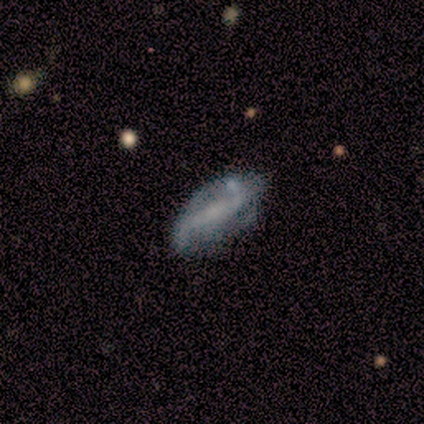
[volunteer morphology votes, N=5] smooth_or_featured: featured or disk (p=0.60) [alt: smooth p=0.40]
disk_edge_on: no (p=0.67) [alt: yes p=0.33]
bar: weak (p=0.50) [tied with: no p=0.50]
has_spiral_arms: yes (p=1.00)
spiral_winding: loose (p=1.00)
spiral_arm_count: 2 (p=1.00)
bulge_size: none (p=1.00)
merging: none (p=0.60) [alt: minor disturbance p=0.20]